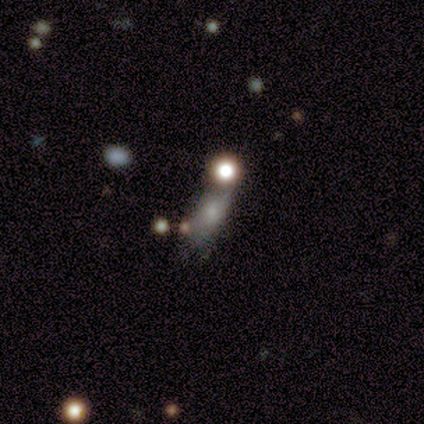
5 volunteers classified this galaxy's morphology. Smooth or featured? smooth (40%, tied with featured or disk)
How rounded? round (50%, tied with in between)
Merging? merger (75%)